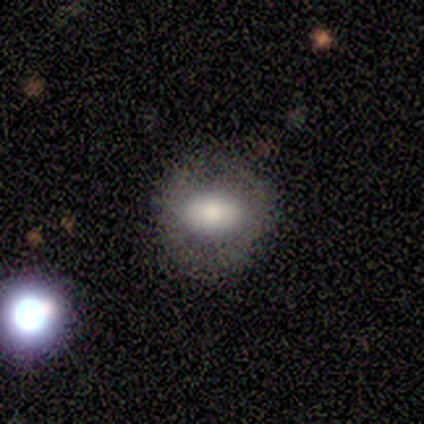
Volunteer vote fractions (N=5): Smooth or featured: smooth — 100%
How rounded: in between — 60% (round — 40%)
Merging: none — 80% (minor disturbance — 20%)